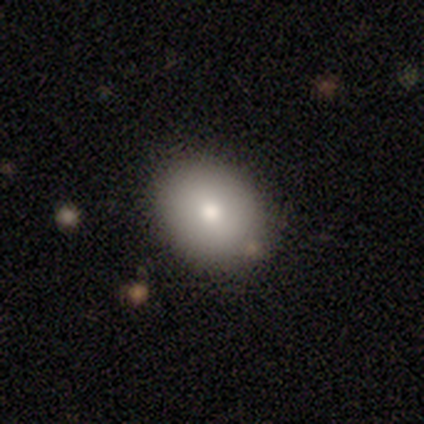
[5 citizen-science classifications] Smooth or featured? 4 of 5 (80%) said smooth. How rounded? 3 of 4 (75%) said in between. Merging? 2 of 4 (50%, tied with minor disturbance) said none.